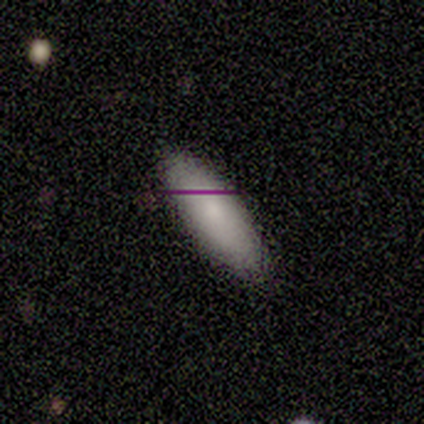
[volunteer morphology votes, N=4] Smooth or featured? smooth (75%)
How rounded? in between (67%)
Merging? none (100%)